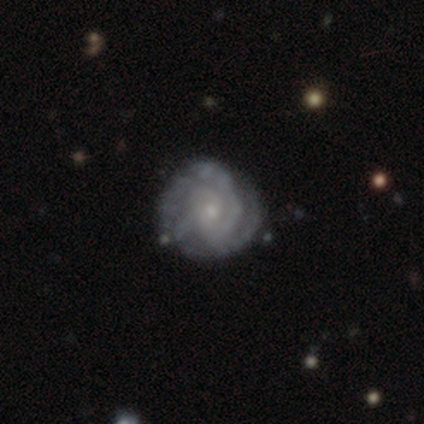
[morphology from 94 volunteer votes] Smooth or featured: featured or disk — 90% (smooth — 9%)
Edge-on disk: no — 100%
Bar: no — 73% (weak — 25%)
Spiral arms: yes — 95% (no — 5%)
Spiral winding: tight — 70% (medium — 23%)
Spiral arm count: 3 — 32% (can't tell — 25%)
Bulge size: small — 78% (moderate — 13%)
Merging: none — 84% (minor disturbance — 12%)